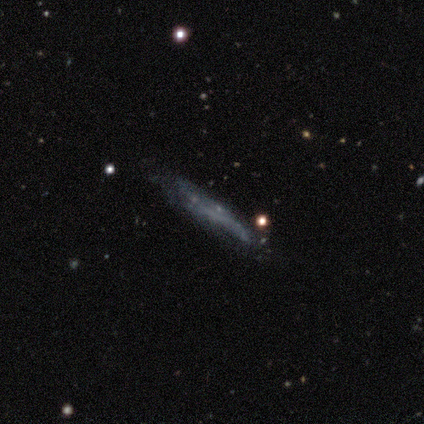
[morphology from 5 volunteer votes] Smooth or featured? featured or disk (60%)
Edge-on disk? yes (67%)
Edge-on bulge? none (100%)
Merging? none (80%)